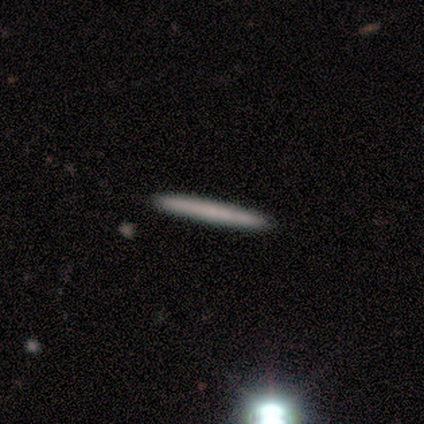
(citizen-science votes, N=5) This is clearly a smooth galaxy (80%). How rounded: clearly cigar-shaped (100%). Merging: likely none (75%).